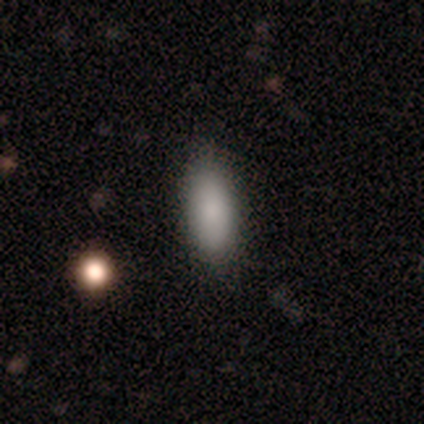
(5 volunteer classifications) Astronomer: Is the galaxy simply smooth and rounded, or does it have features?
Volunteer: smooth — 80%.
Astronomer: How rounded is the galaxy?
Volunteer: in between — 100%.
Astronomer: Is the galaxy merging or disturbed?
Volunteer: none — 80%.